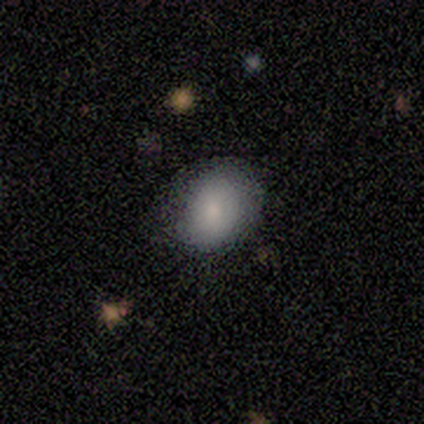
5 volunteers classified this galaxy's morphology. Smooth or featured: smooth — 100%
How rounded: round — 100%
Merging: none — 100%